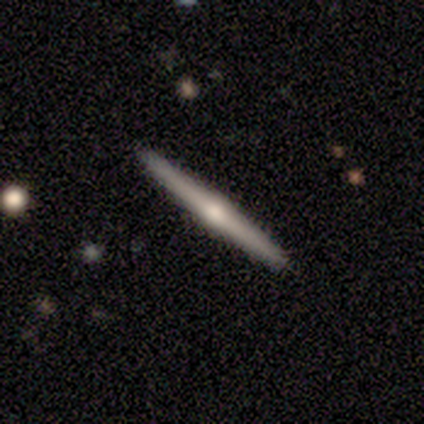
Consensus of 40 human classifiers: This is likely a featured or disk galaxy (72%). It is clearly viewed edge-on (93%). Edge-on bulge: clearly rounded (89%). Merging: clearly none (81%).